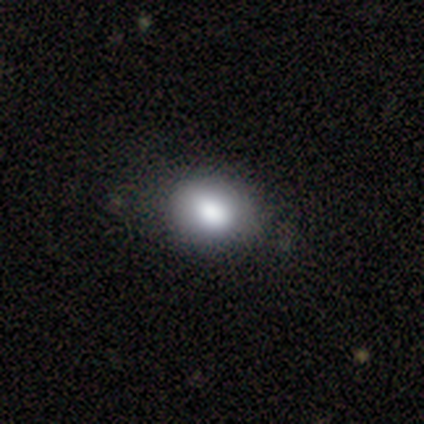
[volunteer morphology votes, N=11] smooth-or-featured: smooth: 82% | featured or disk: 9% | star or artifact: 9%
  how-rounded: round: 78% | in between: 22% | cigar-shaped: 0%
  merging: none: 80% | minor disturbance: 20% | major disturbance: 0% | merger: 0%